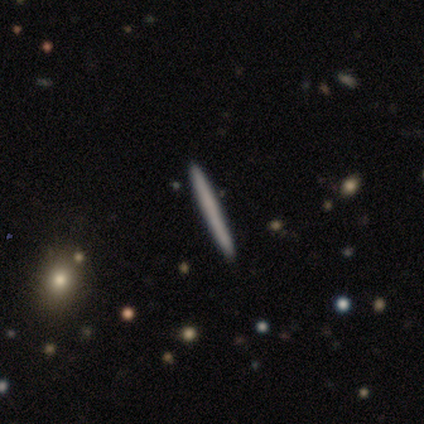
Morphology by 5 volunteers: Smooth or featured? 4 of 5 (80%) said smooth. How rounded? 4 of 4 (100%) said cigar-shaped. Merging? 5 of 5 (100%) said none.